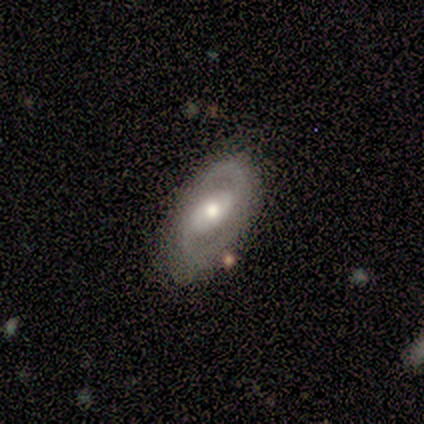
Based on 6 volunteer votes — Smooth or featured? 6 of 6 (100%) said featured or disk. Edge-on disk? 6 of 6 (100%) said no. Bar? 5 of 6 (83%) said strong. Spiral arms? 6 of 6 (100%) said yes. Spiral winding? 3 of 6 (50%, tied with medium) said tight. Spiral arm count? 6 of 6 (100%) said 2. Bulge size? 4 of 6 (67%) said moderate. Merging? 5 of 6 (83%) said none.